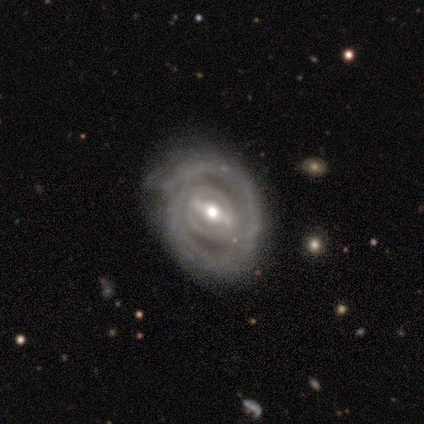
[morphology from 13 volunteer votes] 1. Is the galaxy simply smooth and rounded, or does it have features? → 92% featured or disk, 8% smooth, 0% star or artifact.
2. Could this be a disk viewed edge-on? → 92% no, 8% yes.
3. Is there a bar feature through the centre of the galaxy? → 82% strong, 18% weak, 0% no.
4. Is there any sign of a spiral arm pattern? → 100% yes, 0% no.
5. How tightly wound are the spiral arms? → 91% tight, 9% medium, 0% loose.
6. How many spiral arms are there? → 55% 2, 18% can't tell, 9% 1, 9% 3, 9% 4, 0% more than 4.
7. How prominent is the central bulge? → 73% moderate, 27% small, 0% dominant, 0% large, 0% none.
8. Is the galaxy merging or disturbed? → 85% none, 15% minor disturbance, 0% major disturbance, 0% merger.